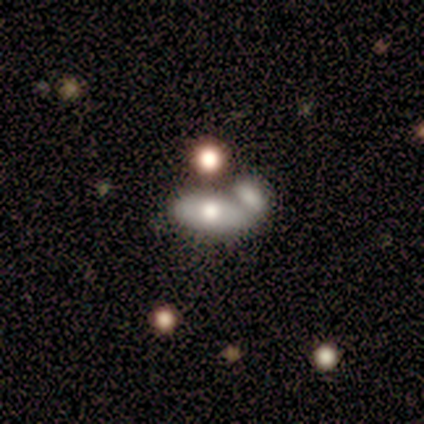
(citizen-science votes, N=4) This appears to be a featured or disk galaxy (75%) with no bar (100%), no spiral arms (67%) and a moderate central bulge (100%). Merging: merger (75%).